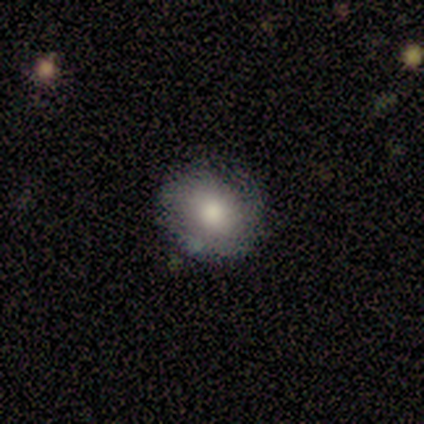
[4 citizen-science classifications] Smooth or featured? 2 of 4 (50%, tied with featured or disk) said smooth. How rounded? 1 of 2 (50%, tied with in between) said round. Merging? 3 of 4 (75%) said none.